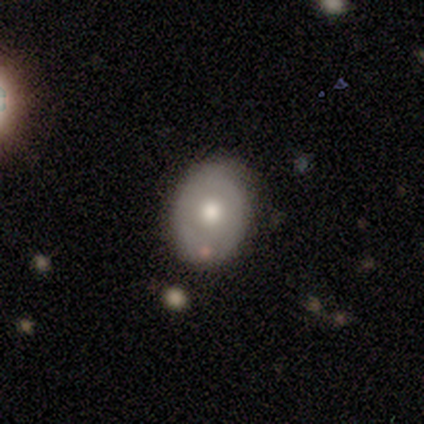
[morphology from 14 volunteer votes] smooth-or-featured: smooth: 64% | featured or disk: 36% | star or artifact: 0%
  how-rounded: in between: 89% | round: 11% | cigar-shaped: 0%
  merging: none: 71% | minor disturbance: 14% | major disturbance: 14% | merger: 0%